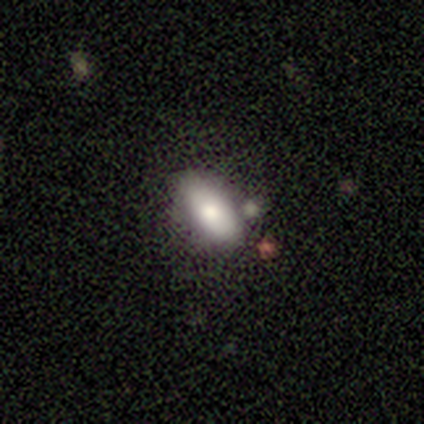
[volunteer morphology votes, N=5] Q: Smooth or featured?
A: smooth (60%); runner-up: featured or disk (40%)
Q: How rounded?
A: in between (100%)
Q: Merging?
A: none (40%); runner-up: minor disturbance (20%)